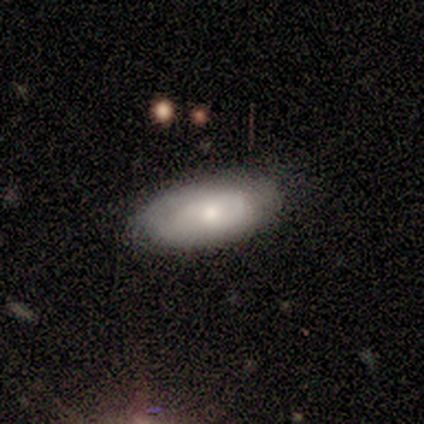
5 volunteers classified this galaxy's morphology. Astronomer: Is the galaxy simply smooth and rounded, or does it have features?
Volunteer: smooth — 60% (runner-up: featured or disk, 40%).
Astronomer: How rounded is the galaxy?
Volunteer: in between — 67%.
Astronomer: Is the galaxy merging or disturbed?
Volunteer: none — 100%.